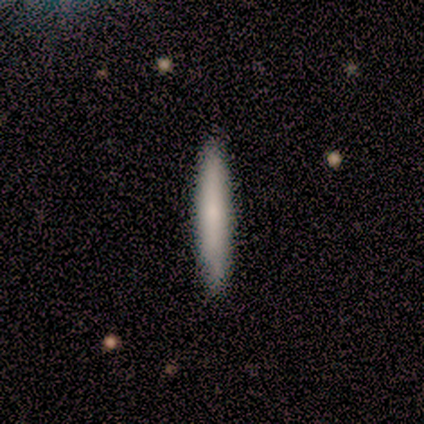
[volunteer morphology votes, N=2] Smooth or featured? 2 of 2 (100%) said smooth. How rounded? 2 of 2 (100%) said cigar-shaped. Merging? 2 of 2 (100%) said none.